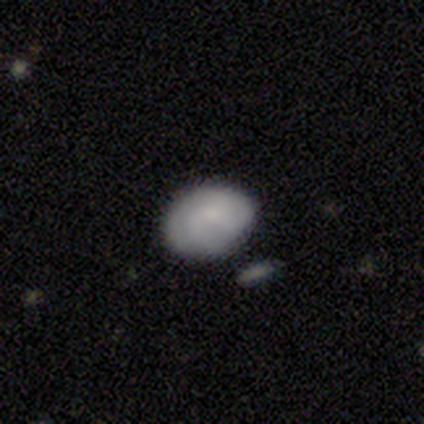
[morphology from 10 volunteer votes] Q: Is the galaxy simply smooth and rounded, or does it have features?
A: smooth — 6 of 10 (60%).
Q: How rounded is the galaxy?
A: in between — 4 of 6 (67%).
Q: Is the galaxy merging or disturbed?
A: none — 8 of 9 (89%).